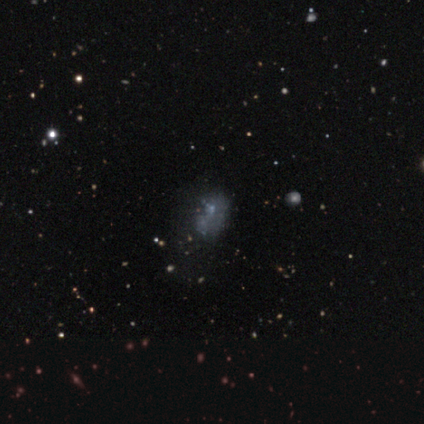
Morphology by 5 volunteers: This appears to be a smooth galaxy with no disk features (40%, tied with featured or disk) that is round (100%). Merging: major disturbance (75%).